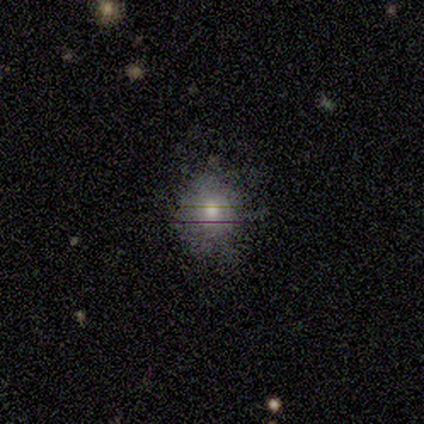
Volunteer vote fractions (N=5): Q: Smooth or featured?
A: smooth (40%); tied with: featured or disk (40%)
Q: How rounded?
A: round (100%)
Q: Merging?
A: none (100%)